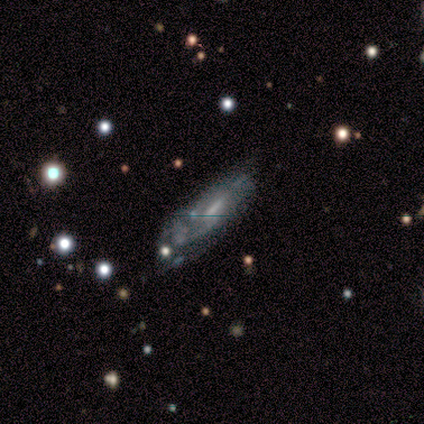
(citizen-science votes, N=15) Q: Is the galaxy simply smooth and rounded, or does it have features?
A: featured or disk — 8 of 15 (53%).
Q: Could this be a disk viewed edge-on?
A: no — 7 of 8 (88%).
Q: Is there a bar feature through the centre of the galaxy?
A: no — 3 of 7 (43%).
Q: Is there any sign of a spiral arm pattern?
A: yes — 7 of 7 (100%).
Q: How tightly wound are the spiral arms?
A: tight — 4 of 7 (57%).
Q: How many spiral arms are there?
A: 2 — 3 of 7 (43%, tied with can't tell).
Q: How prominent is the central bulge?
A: moderate — 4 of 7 (57%).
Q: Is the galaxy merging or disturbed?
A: minor disturbance — 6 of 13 (46%).